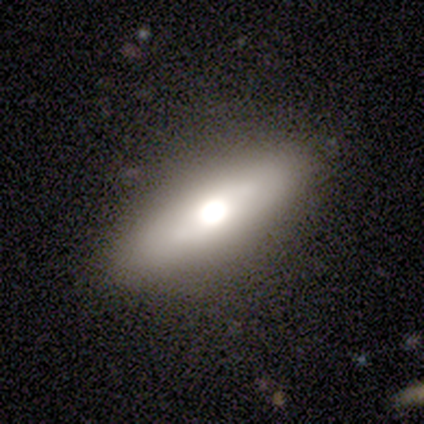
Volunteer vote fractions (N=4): A featured or disk galaxy (75%) viewed edge-on (67%) with a rounded central bulge (100%). Merging: none (75%).